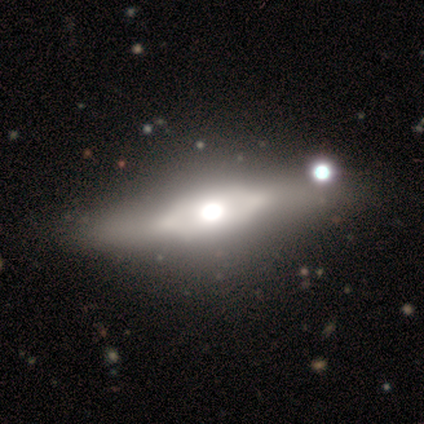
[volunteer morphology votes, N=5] This appears to be a featured or disk galaxy (80%) viewed edge-on (50%, tied with no) with a boxy central bulge (50%, tied with rounded). Merging: none (80%).